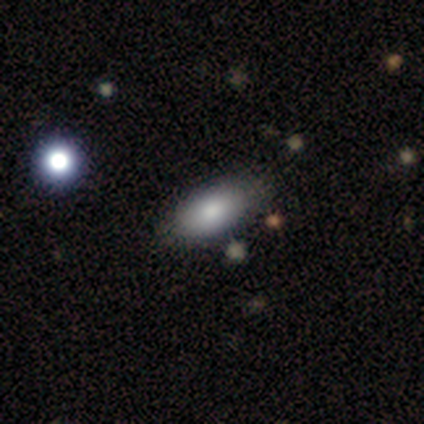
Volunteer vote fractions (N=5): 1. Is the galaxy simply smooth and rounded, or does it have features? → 80% smooth, 20% featured or disk, 0% star or artifact.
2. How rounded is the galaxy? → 100% in between, 0% round, 0% cigar-shaped.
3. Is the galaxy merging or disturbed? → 60% none, 20% minor disturbance, 20% major disturbance, 0% merger.